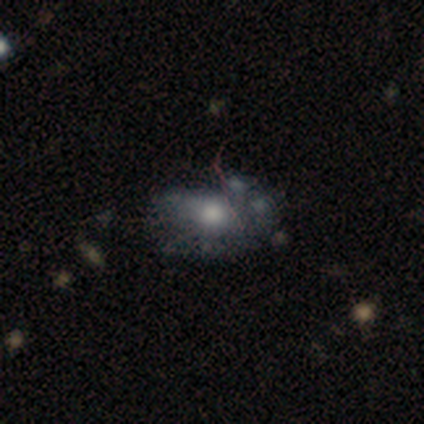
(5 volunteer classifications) smooth-or-featured: featured or disk: 100% | smooth: 0% | star or artifact: 0%
  disk-edge-on: no: 100% | yes: 0%
    bar: no: 100% | strong: 0% | weak: 0%
    has-spiral-arms: no: 80% | yes: 20%
    bulge-size: moderate: 60% | large: 20% | small: 20% | dominant: 0% | none: 0%
  merging: minor disturbance: 60% | none: 20% | merger: 20% | major disturbance: 0%